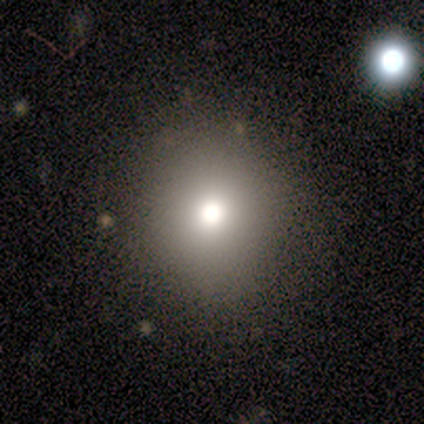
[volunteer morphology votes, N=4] Smooth or featured? 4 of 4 (100%) said smooth. How rounded? 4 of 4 (100%) said round. Merging? 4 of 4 (100%) said none.